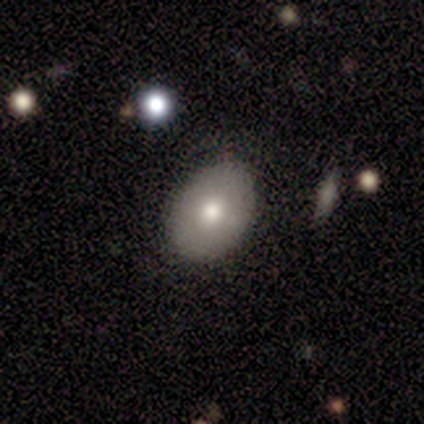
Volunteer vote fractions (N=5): Morphology: type=smooth (100%); roundness=in between (60%); merging=none (100%).